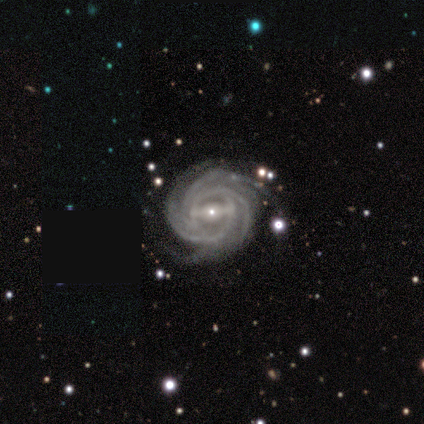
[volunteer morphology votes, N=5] Volunteers were most divided on "spiral arm count" (2-way tie): 3: 40%, more than 4: 40%, can't tell: 20%, 1: 0%, 2: 0%, 4: 0%. More confident: smooth or featured — featured or disk (100%); edge-on disk — no (100%); spiral arms — yes (100%); spiral winding — tight (100%); bulge size — small (80%); bar — strong (60%); merging — none (60%).